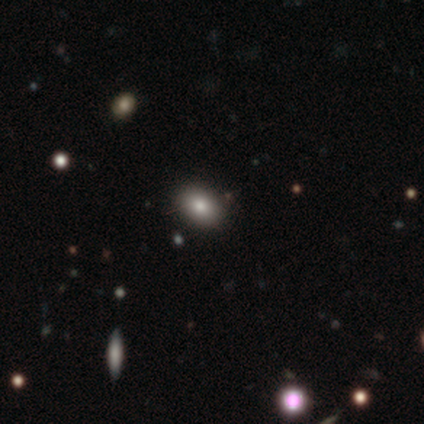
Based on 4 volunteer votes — Volunteers were most divided on "how rounded" (2-way tie): in between: 50%, cigar-shaped: 50%, round: 0%. More confident: merging — none (100%); smooth or featured — smooth (50%).